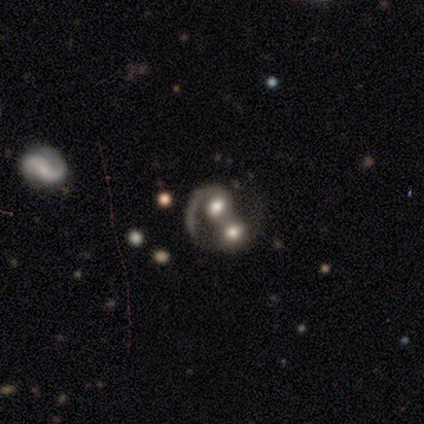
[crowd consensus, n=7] Smooth or featured: featured or disk — 86% (smooth — 14%)
Edge-on disk: no — 100%
Bar: no — 67% (strong — 17%)
Spiral arms: yes — 83% (no — 17%)
Spiral winding: loose — 60% (tight — 40%)
Spiral arm count: 1 — 60% (2 — 20%)
Bulge size: moderate — 50% (large — 33%)
Merging: merger — 86% (minor disturbance — 14%)